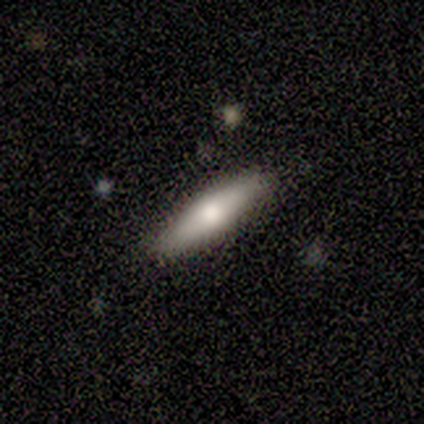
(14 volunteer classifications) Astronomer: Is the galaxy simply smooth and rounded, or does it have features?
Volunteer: smooth — 79%.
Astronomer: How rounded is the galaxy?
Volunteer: cigar-shaped — 82%.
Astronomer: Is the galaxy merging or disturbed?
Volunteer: none — 92%.